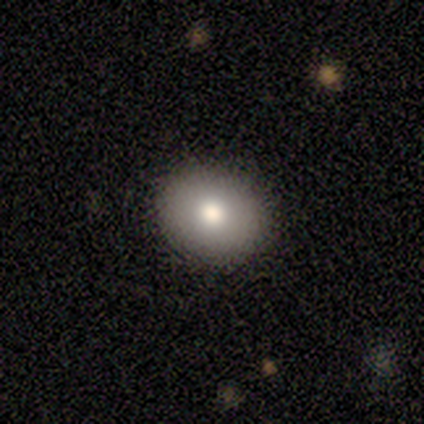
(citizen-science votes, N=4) Smooth or featured? 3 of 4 (75%) said featured or disk. Edge-on disk? 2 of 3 (67%) said no. Bar? 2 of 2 (100%) said no. Spiral arms? 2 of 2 (100%) said no. Bulge size? 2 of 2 (100%) said moderate. Merging? 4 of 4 (100%) said none.